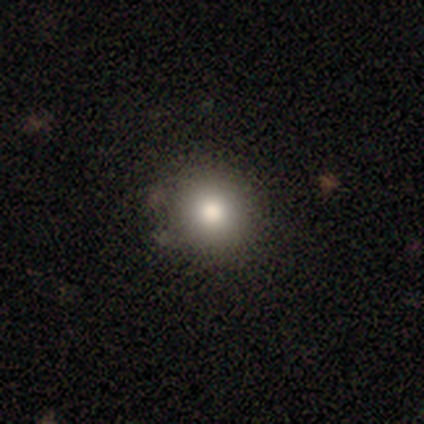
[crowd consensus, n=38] This appears to be a smooth galaxy with no disk features (79%) that is round (93%). Merging: none (88%).